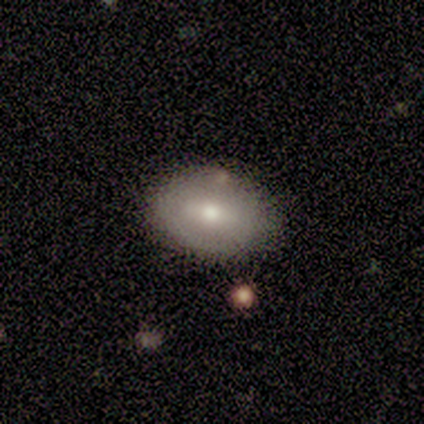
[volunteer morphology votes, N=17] This appears to be a smooth galaxy with no disk features (65%) that is in between round and cigar-shaped (91%). Merging: none (76%).